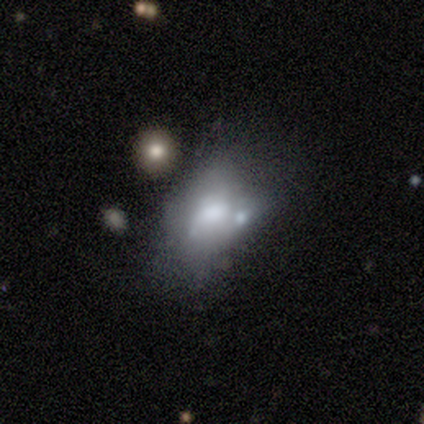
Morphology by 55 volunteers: Overall: featured or disk (64%; smooth 33%). Edge-on disk: no (100%). Bar: no (83%). Spiral arms: no (94%). Bulge size: moderate (57%; large 34%). Merging: merger (40%; major disturbance 25%).